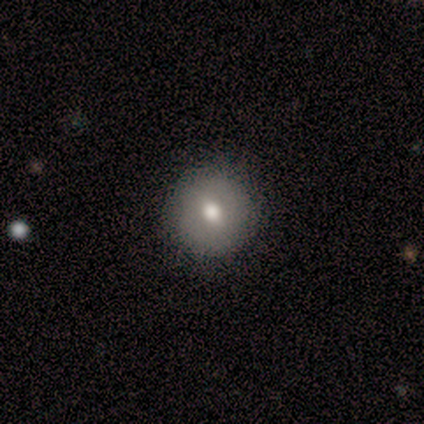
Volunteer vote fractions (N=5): This appears to be a smooth galaxy with no disk features (80%) that is round (100%). Merging: none (100%).